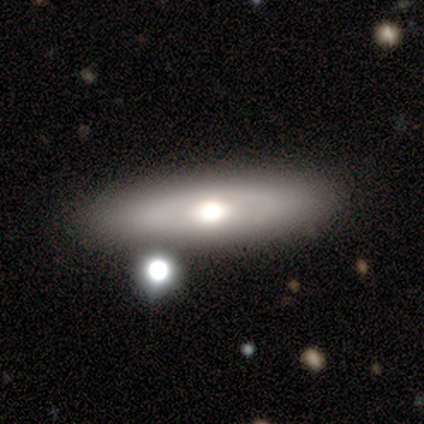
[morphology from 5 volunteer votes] Q: Smooth or featured?
A: featured or disk (60%); runner-up: smooth (20%)
Q: Edge-on disk?
A: no (67%); runner-up: yes (33%)
Q: Bar?
A: no (100%)
Q: Spiral arms?
A: no (100%)
Q: Bulge size?
A: large (50%); tied with: moderate (50%)
Q: Merging?
A: none (75%); runner-up: minor disturbance (25%)